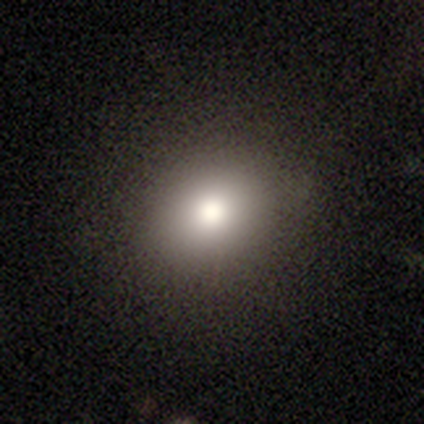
A smooth galaxy with no disk features (80%) that is round (50%, tied with in between).

Vote fractions:
- Smooth or featured? smooth: 80% / star or artifact: 20% / featured or disk: 0%
- How rounded? round: 50% (tied) / in between: 50% (tied) / cigar-shaped: 0%
- Merging? none: 100% / minor disturbance: 0% / major disturbance: 0% / merger: 0%